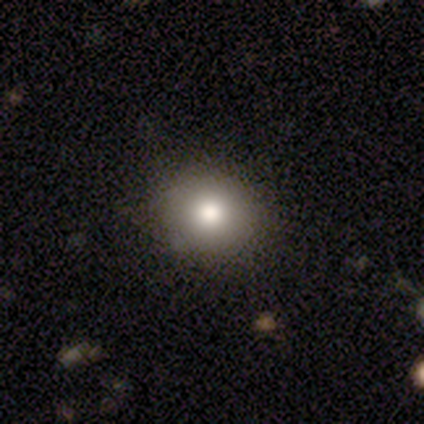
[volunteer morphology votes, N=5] Q: Smooth or featured?
A: smooth (100%)
Q: How rounded?
A: round (80%); runner-up: in between (20%)
Q: Merging?
A: none (100%)